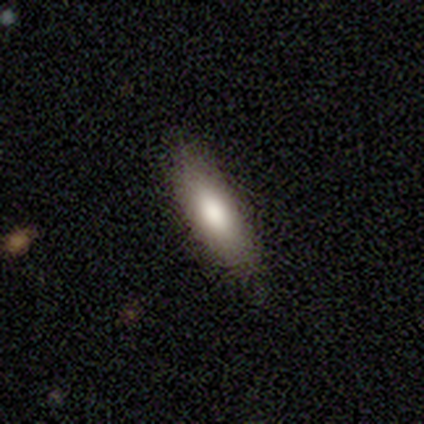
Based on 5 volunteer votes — smooth-or-featured: smooth: 100% | featured or disk: 0% | star or artifact: 0%
  how-rounded: in between: 60% | cigar-shaped: 40% | round: 0%
  merging: none: 100% | minor disturbance: 0% | major disturbance: 0% | merger: 0%